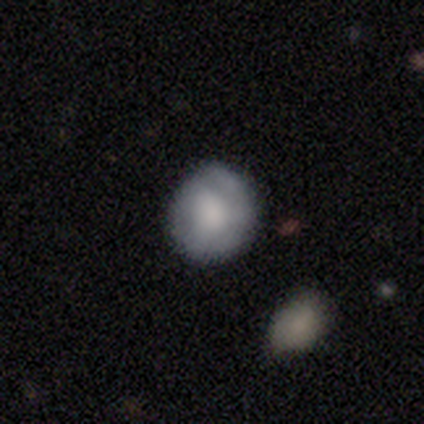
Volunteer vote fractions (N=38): Overall: smooth (53%; featured or disk 39%). How rounded: round (80%). Merging: none (51%; minor disturbance 17%).